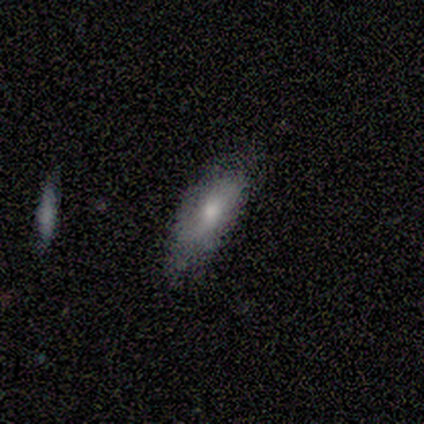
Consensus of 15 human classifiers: Smooth or featured? smooth (67%)
How rounded? in between (50%)
Merging? none (73%)